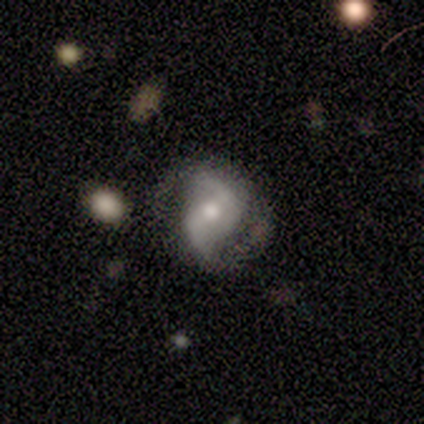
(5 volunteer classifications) Volunteers were most divided on "bar": no: 60%, strong: 20%, weak: 20%. More confident: smooth or featured — featured or disk (100%); edge-on disk — no (100%); spiral arms — yes (100%); spiral arm count — 2 (100%); spiral winding — loose (80%); bulge size — moderate (80%); merging — none (80%).